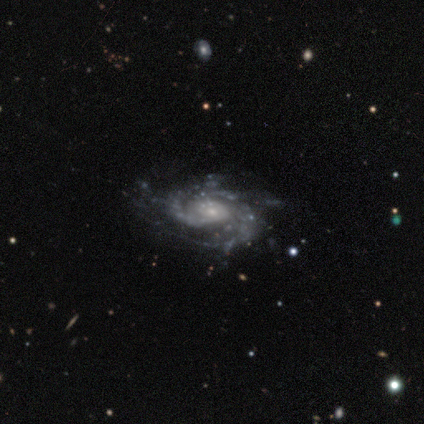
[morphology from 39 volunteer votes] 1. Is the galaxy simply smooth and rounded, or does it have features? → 90% featured or disk, 8% star or artifact, 3% smooth.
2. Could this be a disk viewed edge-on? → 97% no, 3% yes.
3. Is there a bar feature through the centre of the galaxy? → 88% no, 9% weak, 3% strong.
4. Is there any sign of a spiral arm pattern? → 100% yes, 0% no.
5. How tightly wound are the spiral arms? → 53% tight, 38% medium, 9% loose.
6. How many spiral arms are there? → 41% 2, 24% 3, 24% can't tell, 6% 4, 3% 1, 3% more than 4.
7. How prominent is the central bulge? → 62% small, 35% moderate, 3% none, 0% dominant, 0% large.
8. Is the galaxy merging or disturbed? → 33% none, 19% minor disturbance, 11% major disturbance, 6% merger.